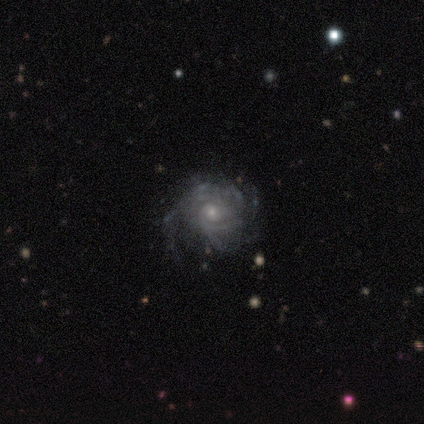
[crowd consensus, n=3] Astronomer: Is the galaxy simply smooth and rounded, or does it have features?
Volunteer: featured or disk — 67%.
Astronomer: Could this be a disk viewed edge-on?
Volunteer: no — 100%.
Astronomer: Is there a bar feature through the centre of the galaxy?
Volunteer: weak — 50%, tied with no at 50%.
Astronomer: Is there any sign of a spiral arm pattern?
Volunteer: yes — 100%.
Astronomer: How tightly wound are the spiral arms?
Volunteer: tight — 100%.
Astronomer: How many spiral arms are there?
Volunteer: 1 — 50%, tied with more than 4 at 50%.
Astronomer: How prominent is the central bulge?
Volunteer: moderate — 50%, tied with small at 50%.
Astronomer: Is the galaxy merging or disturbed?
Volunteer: none — 67%.